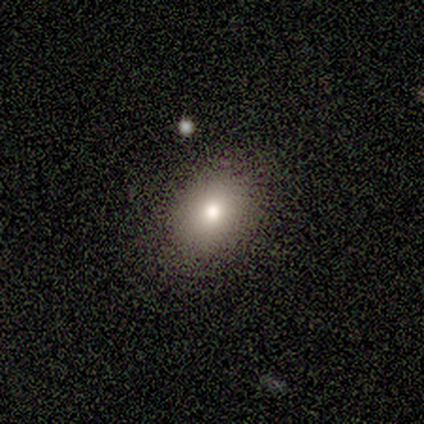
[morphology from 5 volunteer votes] type=smooth (80%); roundness=round (50%, tied with in between); merging=none (75%).